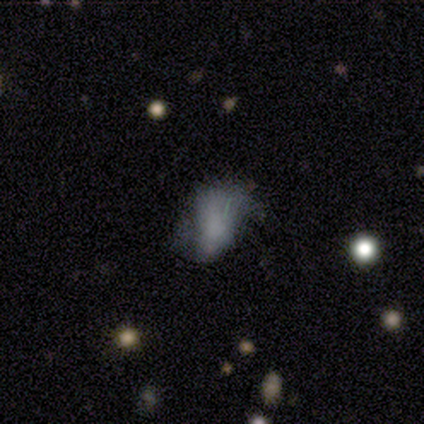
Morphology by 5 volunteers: Q: Smooth or featured?
A: smooth (60%); runner-up: featured or disk (20%)
Q: How rounded?
A: in between (100%)
Q: Merging?
A: minor disturbance (50%); runner-up: none (25%)